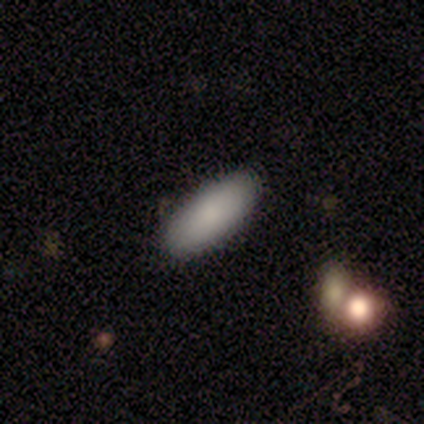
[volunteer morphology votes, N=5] Q: Smooth or featured?
A: smooth (100%)
Q: How rounded?
A: in between (100%)
Q: Merging?
A: none (80%); runner-up: major disturbance (20%)